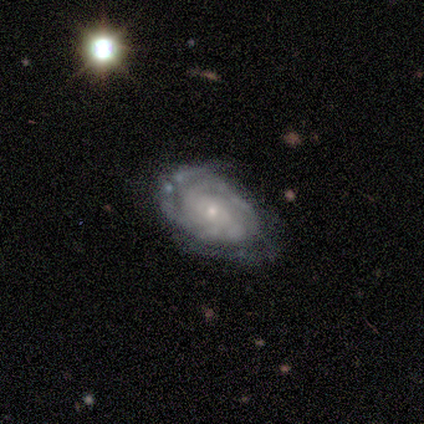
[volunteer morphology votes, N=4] featured or disk 100%, smooth 0%, star or artifact 0%. Down the decision tree: edge-on disk — no (100%); bar — no (75%); spiral arms — yes (100%); spiral arm count — 3 (50%); spiral winding — tight (75%); bulge size — small (75%); merging — none (75%).